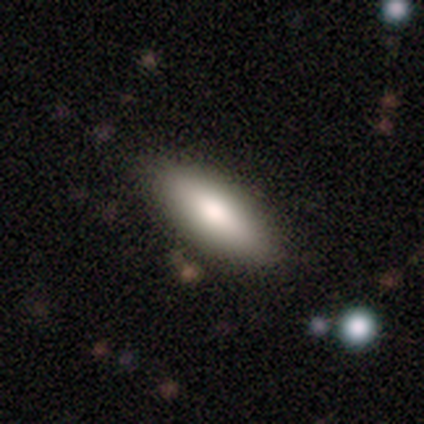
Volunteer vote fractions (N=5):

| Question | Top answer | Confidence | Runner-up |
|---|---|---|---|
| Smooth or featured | smooth | 60% | featured or disk (40%) |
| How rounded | in between | 67% | cigar-shaped (33%) |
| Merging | none | 100% | — |